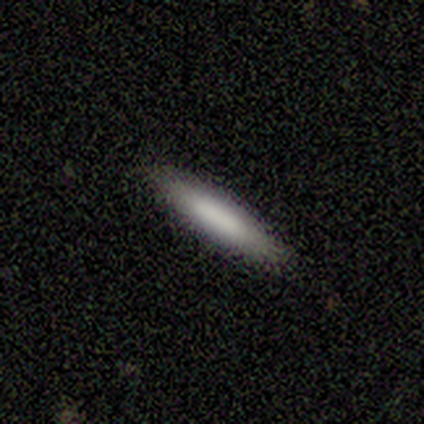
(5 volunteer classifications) smooth_or_featured: smooth (p=0.80) [alt: featured or disk p=0.20]
how_rounded: cigar-shaped (p=1.00)
merging: none (p=1.00)